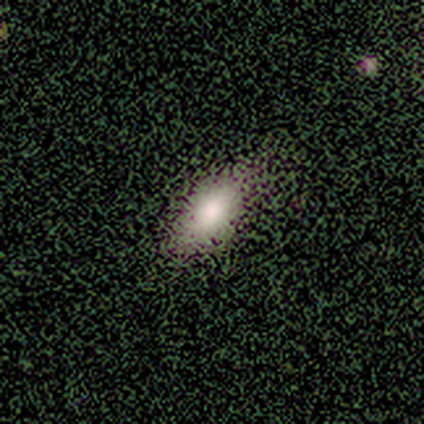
A smooth galaxy with no disk features (83%) that is in between round and cigar-shaped (100%).

Vote fractions:
- Smooth or featured? smooth: 83% / featured or disk: 17% / star or artifact: 0%
- How rounded? in between: 100% / round: 0% / cigar-shaped: 0%
- Merging? none: 100% / minor disturbance: 0% / major disturbance: 0% / merger: 0%